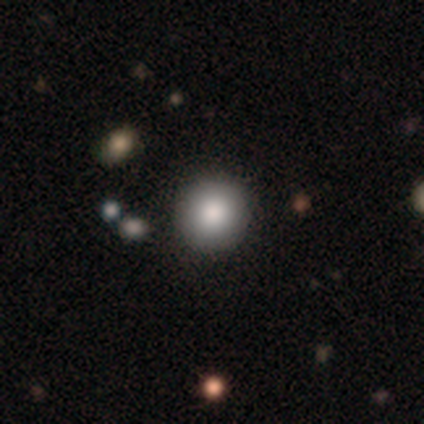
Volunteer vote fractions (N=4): Morphology: type=smooth (50%, tied with featured or disk); roundness=round (100%); merging=none (100%).